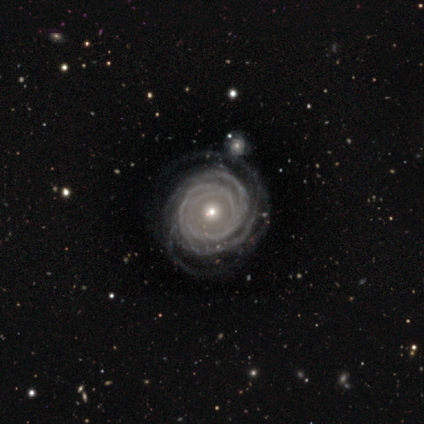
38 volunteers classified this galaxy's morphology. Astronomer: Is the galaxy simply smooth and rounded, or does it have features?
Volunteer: featured or disk — 87%.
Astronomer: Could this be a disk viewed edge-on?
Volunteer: no — 100%.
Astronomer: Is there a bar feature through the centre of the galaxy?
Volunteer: no — 88%.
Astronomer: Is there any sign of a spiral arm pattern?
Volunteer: yes — 94%.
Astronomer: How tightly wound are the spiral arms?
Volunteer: tight — 77%.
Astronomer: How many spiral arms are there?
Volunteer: can't tell — 29% (runner-up: 2, 26%).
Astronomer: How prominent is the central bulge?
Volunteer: small — 52% (runner-up: moderate, 45%).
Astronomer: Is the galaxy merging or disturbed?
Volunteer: none — 71%.